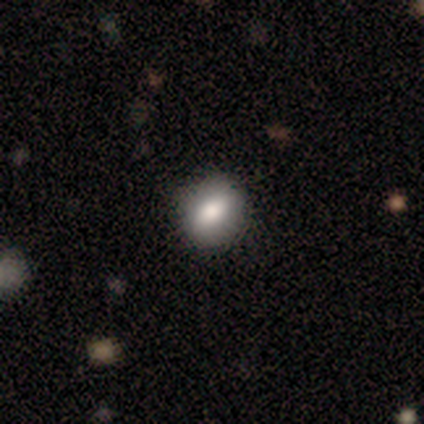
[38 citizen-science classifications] smooth-or-featured: smooth: 76% | featured or disk: 16% | star or artifact: 8%
  how-rounded: round: 62% | in between: 38% | cigar-shaped: 0%
  merging: none: 91% | minor disturbance: 9% | major disturbance: 0% | merger: 0%